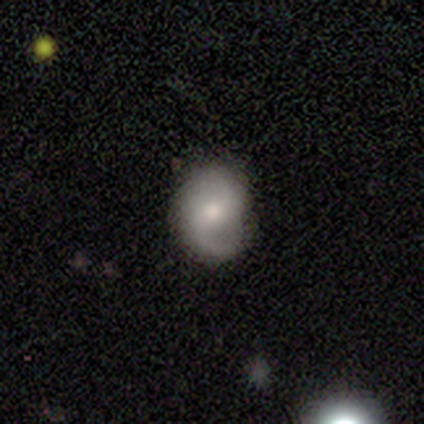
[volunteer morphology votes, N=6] Smooth or featured? 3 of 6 (50%, tied with featured or disk) said smooth. How rounded? 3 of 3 (100%) said round. Merging? 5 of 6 (83%) said none.